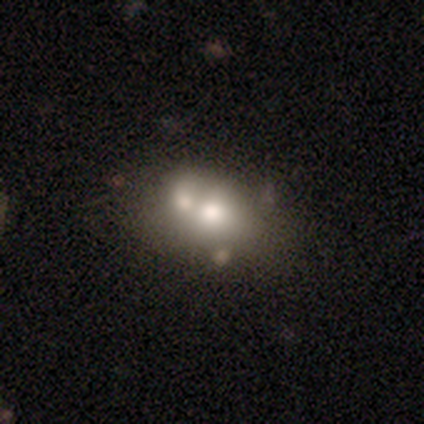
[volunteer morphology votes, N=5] Smooth or featured?
  - smooth: 60% *
  - featured or disk: 40%
  - star or artifact: 0%
How rounded?
  - in between: 67% *
  - round: 33%
  - cigar-shaped: 0%
Merging?
  - merger: 60% *
  - minor disturbance: 40%
  - none: 0%
  - major disturbance: 0%